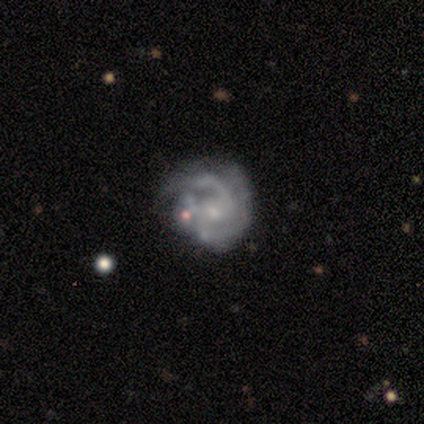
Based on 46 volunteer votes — smooth_or_featured: featured or disk (p=0.85) [alt: star or artifact p=0.09]
disk_edge_on: no (p=0.97) [alt: yes p=0.03]
bar: no (p=0.76) [alt: weak p=0.24]
has_spiral_arms: yes (p=0.87) [alt: no p=0.13]
spiral_winding: tight (p=0.58) [alt: medium p=0.21]
spiral_arm_count: can't tell (p=0.39) [alt: 2 p=0.27]
bulge_size: small (p=0.53) [alt: moderate p=0.26]
merging: none (p=0.45) [alt: minor disturbance p=0.26]